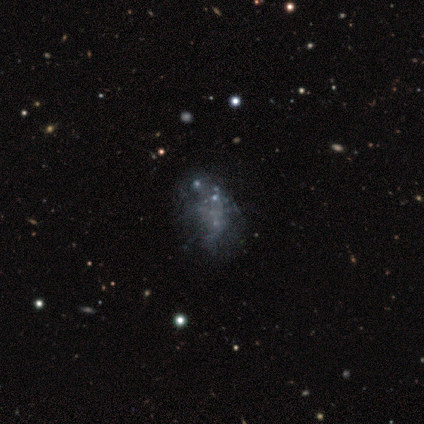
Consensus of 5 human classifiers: A featured or disk galaxy (80%) with no bar (100%), no spiral arms (100%) and no central bulge (100%).

Vote fractions:
- Smooth or featured? featured or disk: 80% / smooth: 20% / star or artifact: 0%
- Edge-on disk? no: 100% / yes: 0%
- Bar? no: 100% / strong: 0% / weak: 0%
- Spiral arms? no: 100% / yes: 0%
- Bulge size? none: 100% / dominant: 0% / large: 0% / moderate: 0% / small: 0%
- Merging? none: 60% / major disturbance: 20% / merger: 20% / minor disturbance: 0%